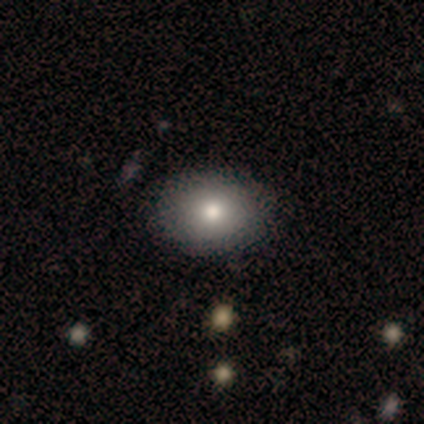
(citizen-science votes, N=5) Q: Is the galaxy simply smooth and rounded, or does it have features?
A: smooth — 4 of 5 (80%).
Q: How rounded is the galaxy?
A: in between — 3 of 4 (75%).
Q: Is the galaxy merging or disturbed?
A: none — 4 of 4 (100%).